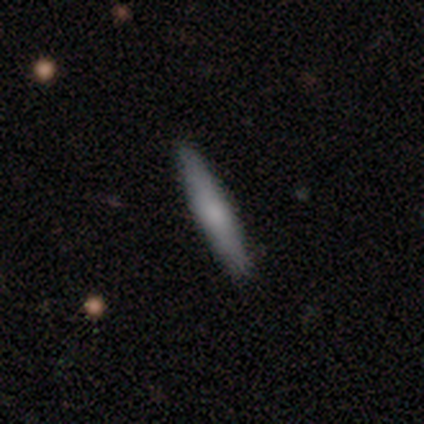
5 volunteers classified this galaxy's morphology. smooth 80%, star or artifact 20%, featured or disk 0%. Down the decision tree: how rounded — cigar-shaped (100%); merging — none (75%).